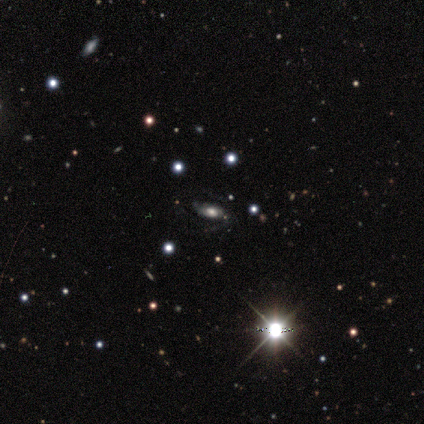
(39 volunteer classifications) Q: Smooth or featured?
A: star or artifact (49%); runner-up: featured or disk (38%)